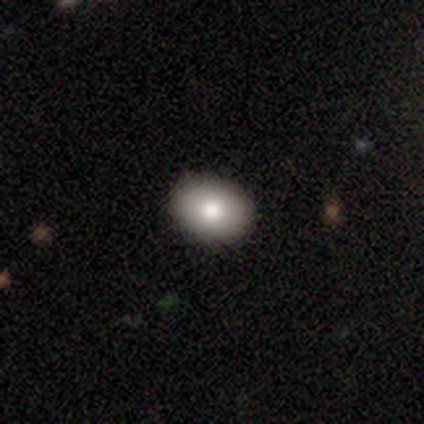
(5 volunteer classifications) smooth 100%, featured or disk 0%, star or artifact 0%. Down the decision tree: how rounded — round (100%); merging — none (100%).